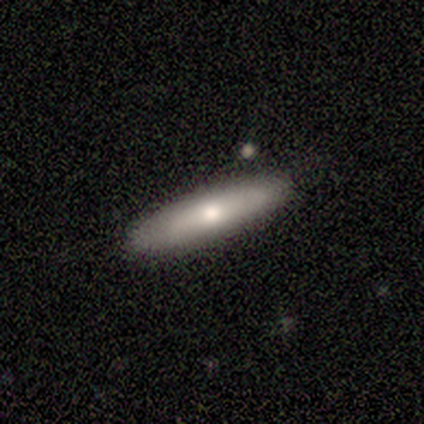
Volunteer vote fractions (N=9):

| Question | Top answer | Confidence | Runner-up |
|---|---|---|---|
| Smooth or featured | featured or disk | 56% | smooth (44%) |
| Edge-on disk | yes | 80% | no (20%) |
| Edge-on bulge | none | 75% | rounded (25%) |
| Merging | none | 89% | merger (11%) |